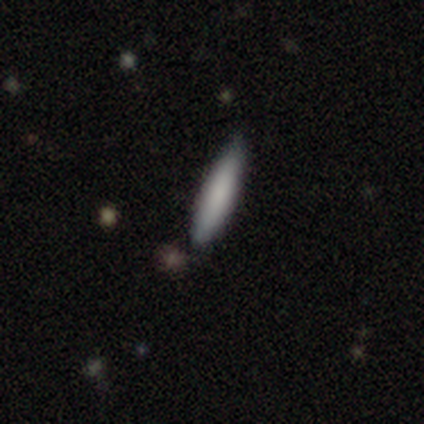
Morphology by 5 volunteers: smooth_or_featured: smooth (p=1.00)
how_rounded: cigar-shaped (p=1.00)
merging: none (p=0.80) [alt: minor disturbance p=0.20]